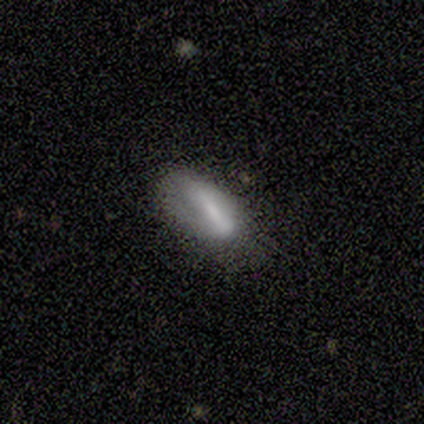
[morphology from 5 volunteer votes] Smooth or featured? smooth (80%)
How rounded? in between (50%, tied with cigar-shaped)
Merging? none (60%)